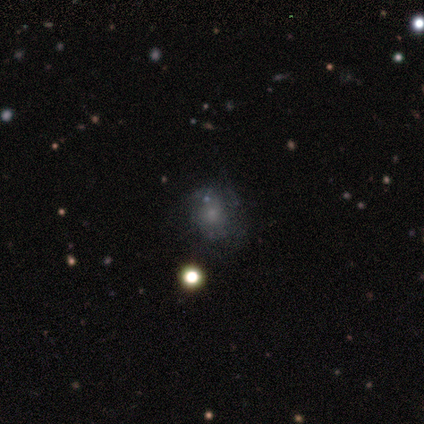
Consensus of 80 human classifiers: Morphology: type=smooth (52%); roundness=round (64%); merging=none (51%).